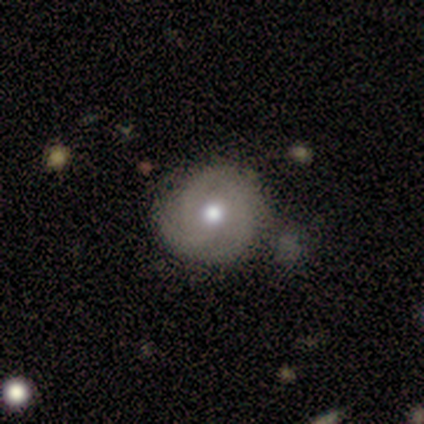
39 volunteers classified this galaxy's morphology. Smooth or featured?
  - featured or disk: 59% *
  - smooth: 23%
  - star or artifact: 18%
Edge-on disk?
  - no: 96% *
  - yes: 4%
Bar?
  - no: 82% *
  - weak: 18%
  - strong: 0%
Spiral arms?
  - yes: 77% *
  - no: 23%
Spiral winding?
  - tight: 53% *
  - medium: 41%
  - loose: 6%
Spiral arm count?
  - 3: 71% *
  - 2: 12%
  - can't tell: 12%
  - 4: 6%
  - 1: 0%
  - more than 4: 0%
Bulge size?
  - moderate: 82% *
  - large: 9%
  - small: 9%
  - dominant: 0%
  - none: 0%
Merging?
  - none: 66% *
  - merger: 22%
  - minor disturbance: 12%
  - major disturbance: 0%